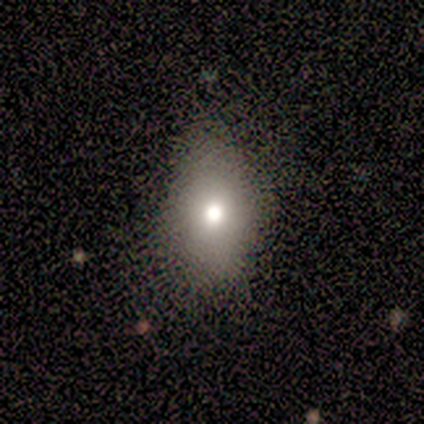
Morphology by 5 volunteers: Smooth or featured?
  - smooth: 100% *
  - featured or disk: 0%
  - star or artifact: 0%
How rounded?
  - round: 40% * (tied)
  - in between: 40% * (tied)
  - cigar-shaped: 20%
Merging?
  - minor disturbance: 60% *
  - none: 40%
  - major disturbance: 0%
  - merger: 0%